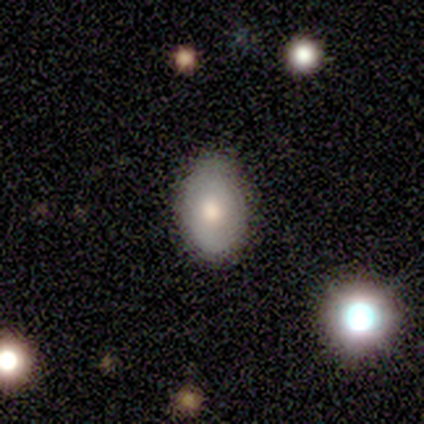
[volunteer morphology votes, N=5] Overall: featured or disk (60%; smooth 40%). Edge-on disk: no (100%). Bar: no (67%; weak 33%). Spiral arms: yes (67%; no 33%). Spiral arm count: 2 (50%, tied with can't tell). Spiral winding: tight (50%, tied with medium). Bulge size: large (33%, tied with moderate and small). Merging: minor disturbance (60%; none 40%).